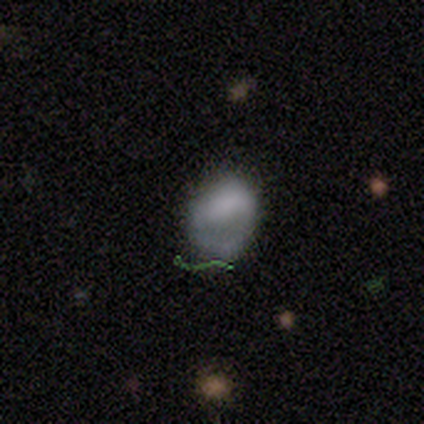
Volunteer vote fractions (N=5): This appears to be a smooth galaxy with no disk features (60%) that is in between round and cigar-shaped (67%). Merging: none (40%, tied with major disturbance).